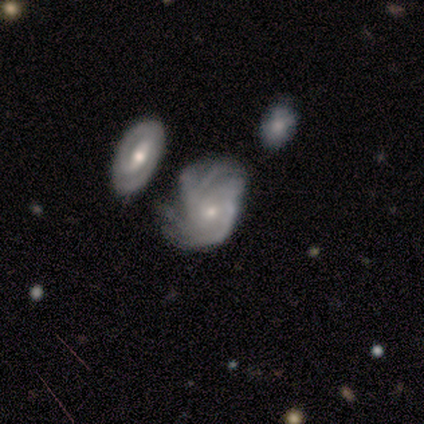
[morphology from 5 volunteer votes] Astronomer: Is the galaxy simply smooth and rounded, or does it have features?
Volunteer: featured or disk — 100%.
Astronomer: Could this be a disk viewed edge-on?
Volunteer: no — 100%.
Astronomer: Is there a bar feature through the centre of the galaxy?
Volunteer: no — 80%.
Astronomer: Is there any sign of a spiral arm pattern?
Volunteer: yes — 100%.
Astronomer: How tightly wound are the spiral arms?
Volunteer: tight — 80%.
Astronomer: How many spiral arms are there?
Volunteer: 2 — 40% (runner-up: 4, 20%).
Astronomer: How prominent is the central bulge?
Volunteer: small — 80%.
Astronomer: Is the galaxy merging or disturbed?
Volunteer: none — 60%.